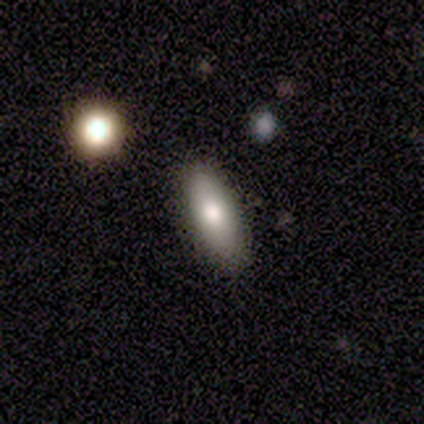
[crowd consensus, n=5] Smooth or featured: smooth — 80% (featured or disk — 20%)
How rounded: in between — 50% (tied with cigar-shaped — 50%)
Merging: none — 100%